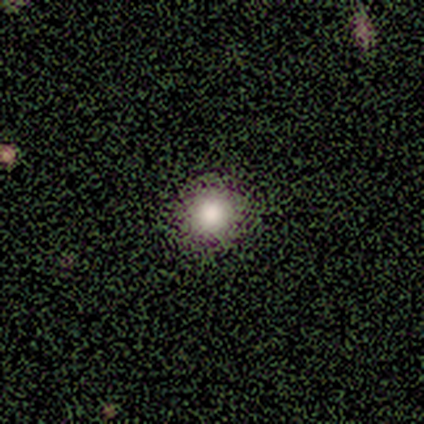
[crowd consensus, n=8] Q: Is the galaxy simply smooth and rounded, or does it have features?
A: smooth — 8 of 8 (100%).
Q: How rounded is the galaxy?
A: round — 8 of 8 (100%).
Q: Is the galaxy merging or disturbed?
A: none — 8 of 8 (100%).